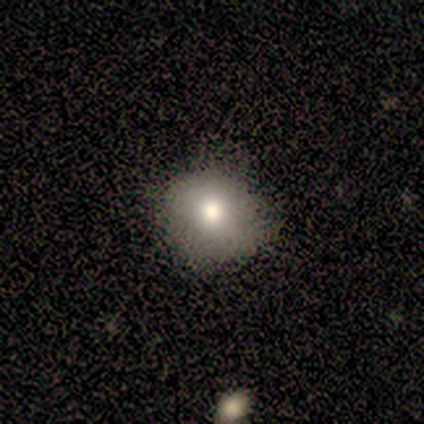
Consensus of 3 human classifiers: Smooth or featured?
  - smooth: 67% *
  - featured or disk: 33%
  - star or artifact: 0%
How rounded?
  - round: 100% *
  - in between: 0%
  - cigar-shaped: 0%
Merging?
  - none: 100% *
  - minor disturbance: 0%
  - major disturbance: 0%
  - merger: 0%